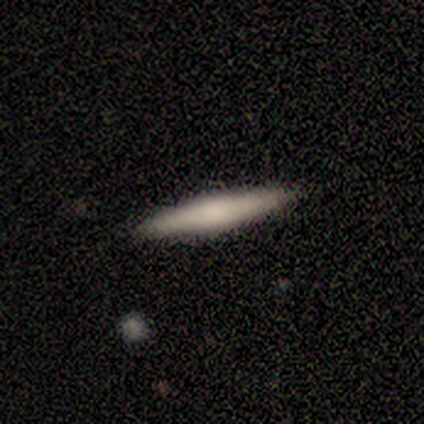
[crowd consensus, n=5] Morphology: type=smooth (100%); roundness=cigar-shaped (80%); merging=none (80%).